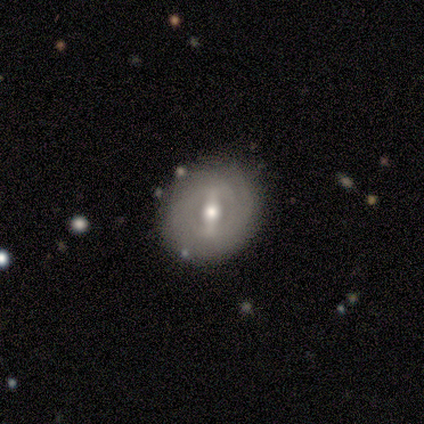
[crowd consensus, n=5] A featured or disk galaxy (100%) with a strong bar (80%), medium (67%) spiral arms (60%) and a moderate central bulge (80%).

Vote fractions:
- Smooth or featured? featured or disk: 100% / smooth: 0% / star or artifact: 0%
- Edge-on disk? no: 100% / yes: 0%
- Bar? strong: 80% / weak: 20% / no: 0%
- Spiral arms? yes: 60% / no: 40%
- Spiral winding? medium: 67% / tight: 33% / loose: 0%
- Spiral arm count? can't tell: 100% / 1: 0% / 2: 0% / 3: 0% / 4: 0% / more than 4: 0%
- Bulge size? moderate: 80% / small: 20% / dominant: 0% / large: 0% / none: 0%
- Merging? none: 100% / minor disturbance: 0% / major disturbance: 0% / merger: 0%